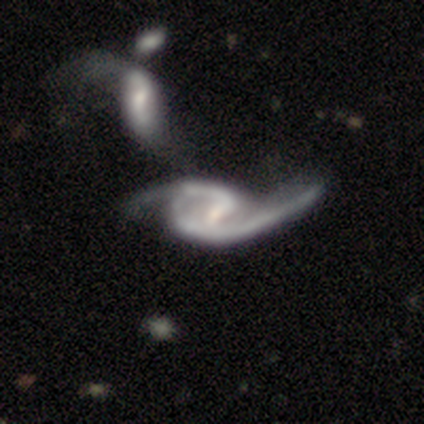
Overall: featured or disk (100%). Edge-on disk: no (100%). Bar: weak (50%, tied with no). Spiral arms: yes (100%). Spiral arm count: 2 (75%). Spiral winding: medium (75%). Bulge size: none (50%; moderate 25%). Merging: minor disturbance (50%; none 25%).